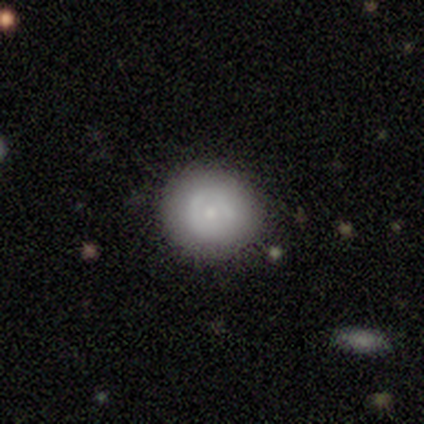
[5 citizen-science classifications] Q: Smooth or featured?
A: smooth (80%); runner-up: featured or disk (20%)
Q: How rounded?
A: round (100%)
Q: Merging?
A: none (80%); runner-up: major disturbance (20%)